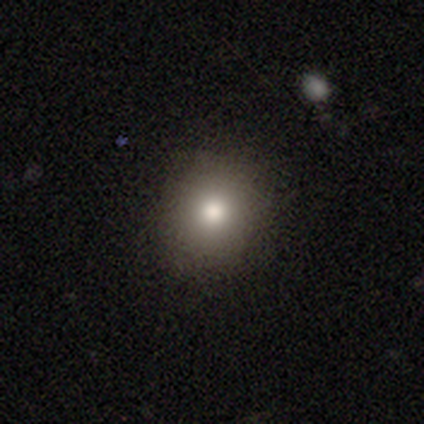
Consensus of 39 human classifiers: smooth_or_featured: smooth (p=0.85) [alt: featured or disk p=0.08]
how_rounded: round (p=0.91) [alt: in between p=0.09]
merging: none (p=0.83) [alt: minor disturbance p=0.11]